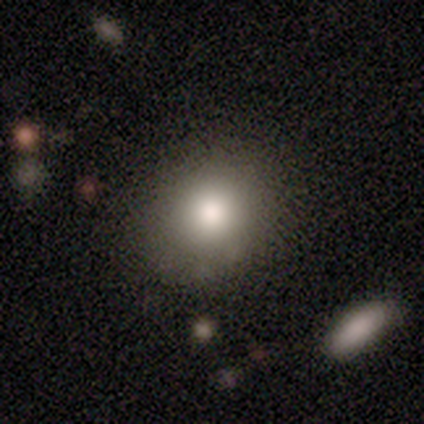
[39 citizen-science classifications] Q: Smooth or featured?
A: smooth (92%); runner-up: star or artifact (5%)
Q: How rounded?
A: round (72%); runner-up: in between (25%)
Q: Merging?
A: none (84%); runner-up: minor disturbance (8%)